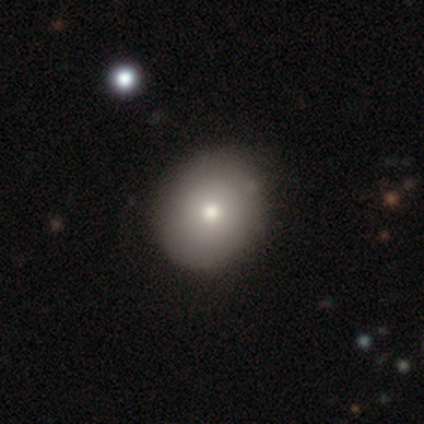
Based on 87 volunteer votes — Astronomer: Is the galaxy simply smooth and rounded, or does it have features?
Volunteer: smooth — 77%.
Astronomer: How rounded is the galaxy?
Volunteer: round — 87%.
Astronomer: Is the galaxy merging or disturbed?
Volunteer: none — 84%.